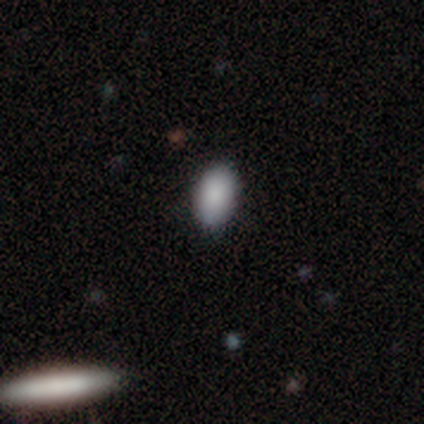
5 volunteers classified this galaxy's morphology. A smooth galaxy with no disk features (100%) that is in between round and cigar-shaped (100%).

Vote fractions:
- Smooth or featured? smooth: 100% / featured or disk: 0% / star or artifact: 0%
- How rounded? in between: 100% / round: 0% / cigar-shaped: 0%
- Merging? none: 100% / minor disturbance: 0% / major disturbance: 0% / merger: 0%